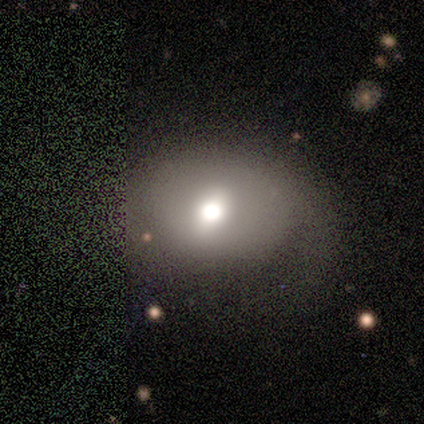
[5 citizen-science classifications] A smooth galaxy with no disk features (60%) that is round (67%).

Vote fractions:
- Smooth or featured? smooth: 60% / featured or disk: 40% / star or artifact: 0%
- How rounded? round: 67% / in between: 33% / cigar-shaped: 0%
- Merging? minor disturbance: 60% / none: 20% / major disturbance: 20% / merger: 0%